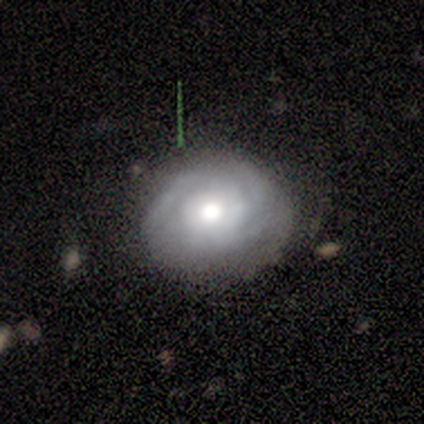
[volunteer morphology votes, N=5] Smooth or featured: smooth — 60% (featured or disk — 40%)
How rounded: round — 100%
Merging: none — 60% (minor disturbance — 20%)